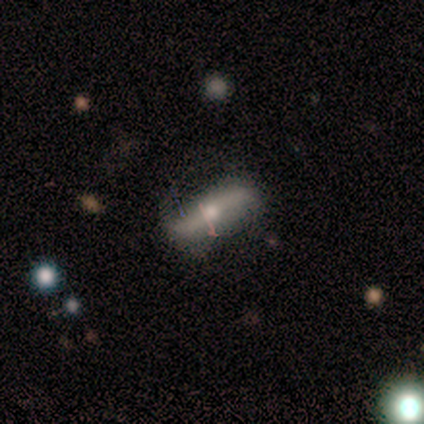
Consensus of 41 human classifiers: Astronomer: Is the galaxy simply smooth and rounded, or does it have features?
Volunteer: featured or disk — 78%.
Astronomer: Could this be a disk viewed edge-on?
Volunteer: no — 59% (runner-up: yes, 41%).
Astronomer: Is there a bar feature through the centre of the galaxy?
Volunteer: strong — 63%.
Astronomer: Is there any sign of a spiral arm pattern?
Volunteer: yes — 84%.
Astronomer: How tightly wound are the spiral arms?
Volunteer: loose — 75%.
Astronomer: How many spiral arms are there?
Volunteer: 2 — 81%.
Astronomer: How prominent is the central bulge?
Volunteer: moderate — 68%.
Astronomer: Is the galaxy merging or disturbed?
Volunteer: none — 63%.